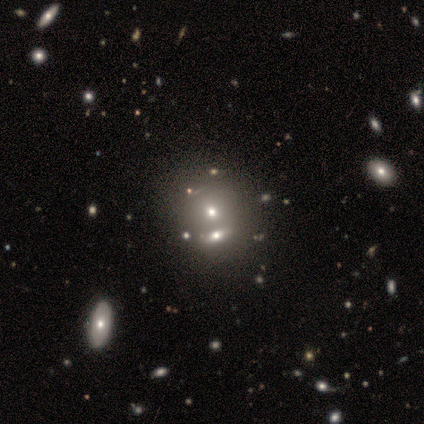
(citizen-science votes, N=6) Smooth or featured: smooth — 50% (star or artifact — 33%)
How rounded: round — 67% (in between — 33%)
Merging: merger — 50% (none — 25%)